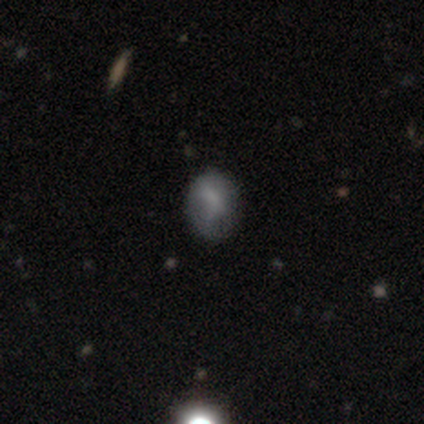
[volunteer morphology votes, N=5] This is likely a smooth galaxy (60%). How rounded: likely in between (67%). Merging: clearly none (100%).